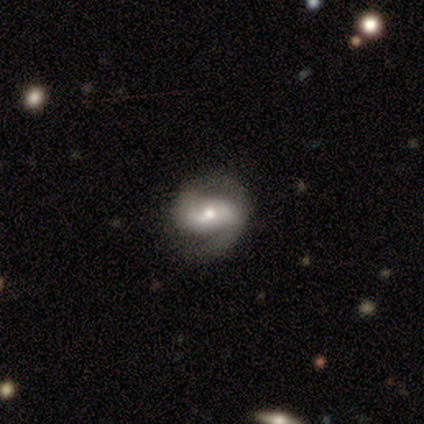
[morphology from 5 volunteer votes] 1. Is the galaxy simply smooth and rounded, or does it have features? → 100% featured or disk, 0% smooth, 0% star or artifact.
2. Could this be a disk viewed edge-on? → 100% no, 0% yes.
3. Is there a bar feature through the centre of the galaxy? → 60% no, 40% weak, 0% strong.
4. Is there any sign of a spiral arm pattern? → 100% yes, 0% no.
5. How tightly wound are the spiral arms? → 60% medium, 20% tight, 20% loose.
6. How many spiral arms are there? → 100% 2, 0% 1, 0% 3, 0% 4, 0% more than 4, 0% can't tell.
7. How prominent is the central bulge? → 60% moderate, 40% small, 0% dominant, 0% large, 0% none.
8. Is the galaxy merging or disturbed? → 80% none, 20% minor disturbance, 0% major disturbance, 0% merger.